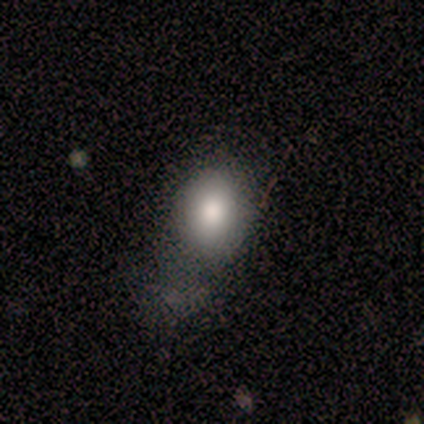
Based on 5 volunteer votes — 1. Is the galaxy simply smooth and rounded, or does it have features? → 100% smooth, 0% featured or disk, 0% star or artifact.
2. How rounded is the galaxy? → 80% in between, 20% round, 0% cigar-shaped.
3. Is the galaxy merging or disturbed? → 60% none, 40% minor disturbance, 0% major disturbance, 0% merger.